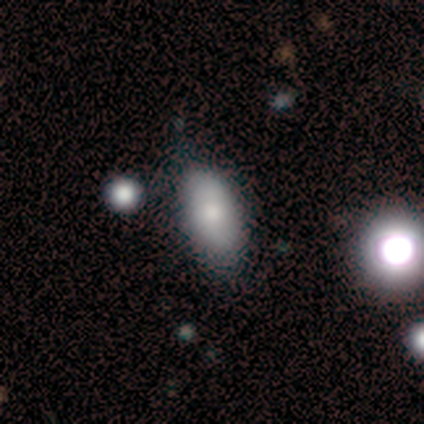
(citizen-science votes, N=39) Smooth or featured: smooth — 67% (featured or disk — 18%)
How rounded: in between — 73% (cigar-shaped — 23%)
Merging: none — 82% (minor disturbance — 9%)